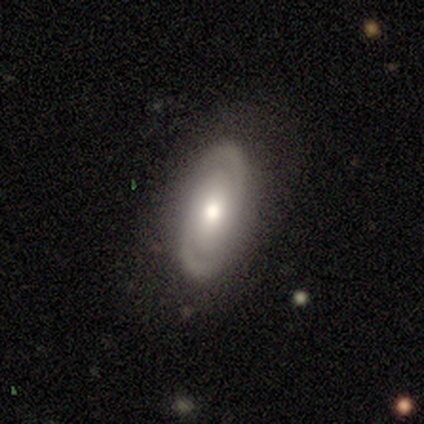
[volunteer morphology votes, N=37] Smooth or featured? featured or disk (84%)
Edge-on disk? no (94%)
Bar? no (83%)
Spiral arms? yes (83%)
Spiral winding? tight (46%)
Spiral arm count? 2 (79%)
Bulge size? moderate (83%)
Merging? none (83%)